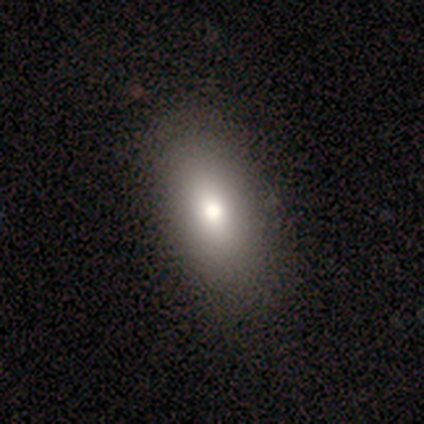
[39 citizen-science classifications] Smooth or featured: smooth — 92% (star or artifact — 5%)
How rounded: in between — 92% (round — 6%)
Merging: none — 57% (major disturbance — 5%)